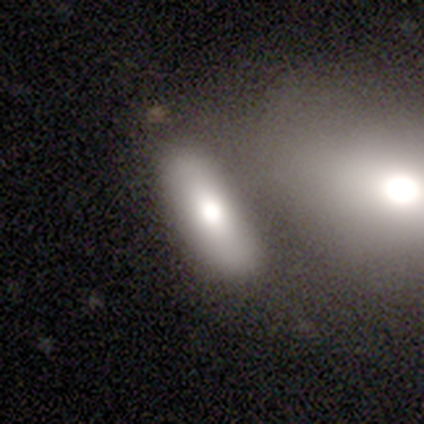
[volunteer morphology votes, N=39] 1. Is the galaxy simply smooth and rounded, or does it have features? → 82% smooth, 13% featured or disk, 5% star or artifact.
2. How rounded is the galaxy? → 59% in between, 38% cigar-shaped, 3% round.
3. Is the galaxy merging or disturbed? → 57% merger, 24% none, 11% minor disturbance, 8% major disturbance.